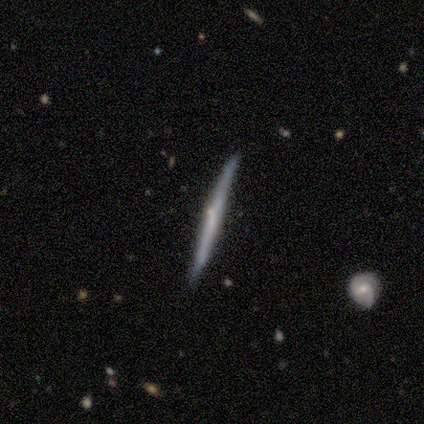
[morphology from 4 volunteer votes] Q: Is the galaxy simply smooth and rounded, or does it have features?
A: featured or disk — 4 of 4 (100%).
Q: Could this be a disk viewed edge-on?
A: yes — 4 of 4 (100%).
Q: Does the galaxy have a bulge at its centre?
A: none — 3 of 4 (75%).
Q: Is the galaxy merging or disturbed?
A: none — 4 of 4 (100%).